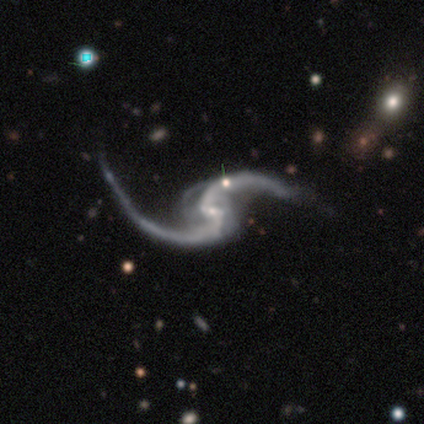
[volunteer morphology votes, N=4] Smooth or featured?
  - featured or disk: 100% *
  - smooth: 0%
  - star or artifact: 0%
Edge-on disk?
  - no: 100% *
  - yes: 0%
Bar?
  - weak: 75% *
  - no: 25%
  - strong: 0%
Spiral arms?
  - yes: 100% *
  - no: 0%
Spiral winding?
  - loose: 100% *
  - tight: 0%
  - medium: 0%
Spiral arm count?
  - 2: 100% *
  - 1: 0%
  - 3: 0%
  - 4: 0%
  - more than 4: 0%
  - can't tell: 0%
Bulge size?
  - small: 100% *
  - dominant: 0%
  - large: 0%
  - moderate: 0%
  - none: 0%
Merging?
  - none: 75% *
  - minor disturbance: 25%
  - major disturbance: 0%
  - merger: 0%